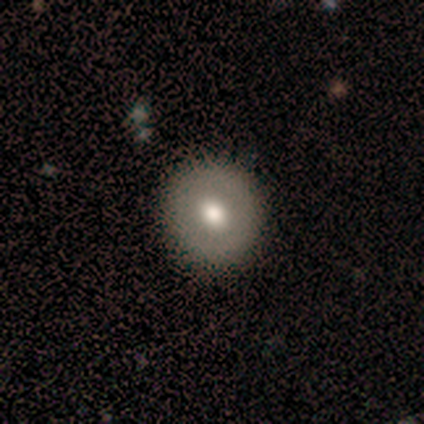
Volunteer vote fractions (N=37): Smooth or featured? 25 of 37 (68%) said smooth. How rounded? 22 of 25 (88%) said round. Merging? 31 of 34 (91%) said none.